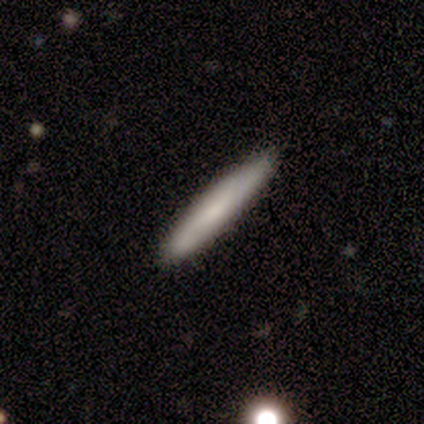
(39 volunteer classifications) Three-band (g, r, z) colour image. It shows a smooth galaxy with no disk features (74%) that is cigar-shaped (97%). Merging: none (84%).